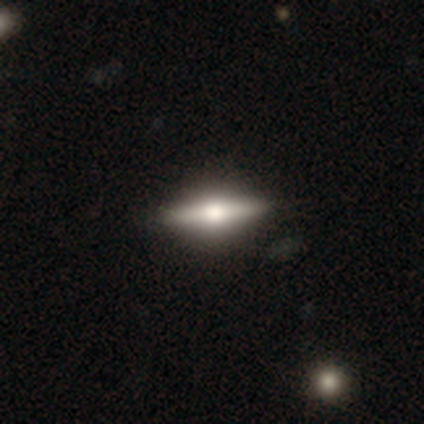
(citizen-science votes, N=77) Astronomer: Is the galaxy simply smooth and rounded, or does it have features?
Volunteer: featured or disk — 68%.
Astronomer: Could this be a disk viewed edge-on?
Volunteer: yes — 98%.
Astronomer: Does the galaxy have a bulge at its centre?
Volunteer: rounded — 94%.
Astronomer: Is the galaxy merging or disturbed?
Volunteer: none — 45%.